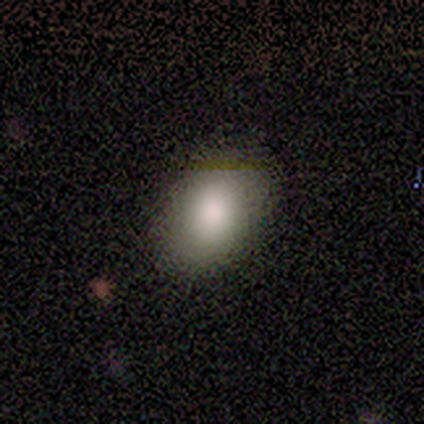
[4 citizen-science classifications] Q: Smooth or featured?
A: smooth (75%); runner-up: featured or disk (25%)
Q: How rounded?
A: round (67%); runner-up: in between (33%)
Q: Merging?
A: none (75%); runner-up: minor disturbance (25%)